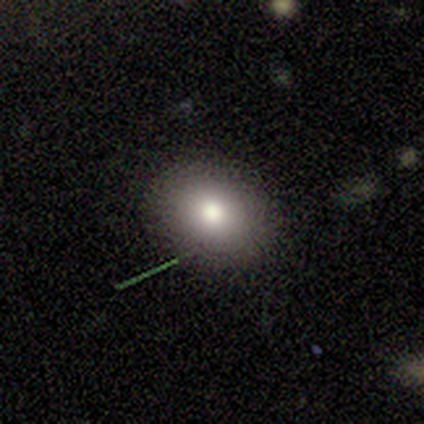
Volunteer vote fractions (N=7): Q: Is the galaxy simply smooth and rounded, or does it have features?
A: smooth — 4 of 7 (57%).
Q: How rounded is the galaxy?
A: round — 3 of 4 (75%).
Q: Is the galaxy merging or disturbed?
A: none — 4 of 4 (100%).